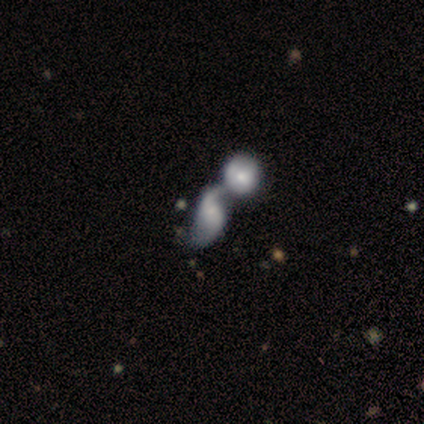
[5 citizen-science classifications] featured or disk 60%, smooth 20%, star or artifact 20%. Down the decision tree: edge-on disk — no (100%); bar — no (67%); spiral arms — yes (100%); spiral arm count — 2 (67%); spiral winding — loose (100%); bulge size — large (33%, tied with moderate and small); merging — merger (100%).